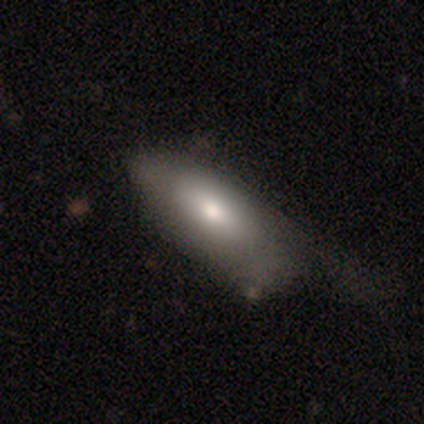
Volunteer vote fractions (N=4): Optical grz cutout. It shows a smooth galaxy with no disk features (75%) that is in between round and cigar-shaped (100%). Merging: major disturbance (50%).